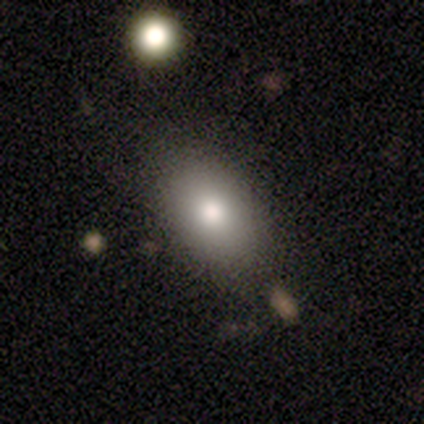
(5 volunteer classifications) Overall: smooth (80%). How rounded: in between (75%). Merging: none (75%).